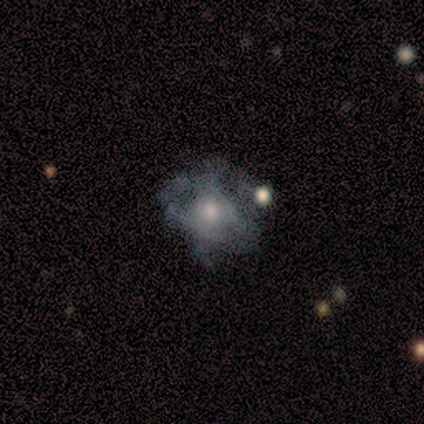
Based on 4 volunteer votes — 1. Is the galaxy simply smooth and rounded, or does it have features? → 50% smooth (tied), 50% featured or disk (tied), 0% star or artifact.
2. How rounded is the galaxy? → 100% in between, 0% round, 0% cigar-shaped.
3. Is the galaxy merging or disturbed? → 50% minor disturbance, 25% none, 25% merger, 0% major disturbance.